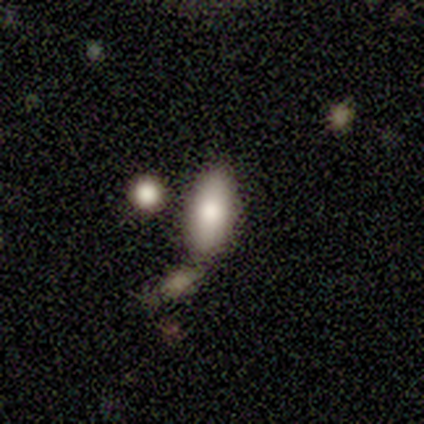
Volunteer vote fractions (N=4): smooth-or-featured: smooth: 75% | featured or disk: 25% | star or artifact: 0%
  how-rounded: in between: 67% | cigar-shaped: 33% | round: 0%
  merging: none: 75% | minor disturbance: 25% | major disturbance: 0% | merger: 0%